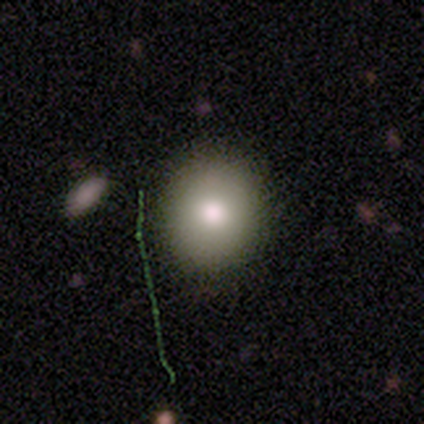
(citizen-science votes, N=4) A smooth galaxy with no disk features (100%) that is round (100%).

Vote fractions:
- Smooth or featured? smooth: 100% / featured or disk: 0% / star or artifact: 0%
- How rounded? round: 100% / in between: 0% / cigar-shaped: 0%
- Merging? none: 100% / minor disturbance: 0% / major disturbance: 0% / merger: 0%